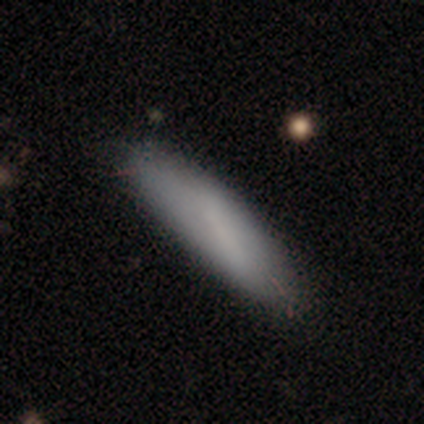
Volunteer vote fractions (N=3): This appears to be a smooth galaxy with no disk features (67%) that is in between round and cigar-shaped (50%, tied with cigar-shaped). Merging: none (100%).